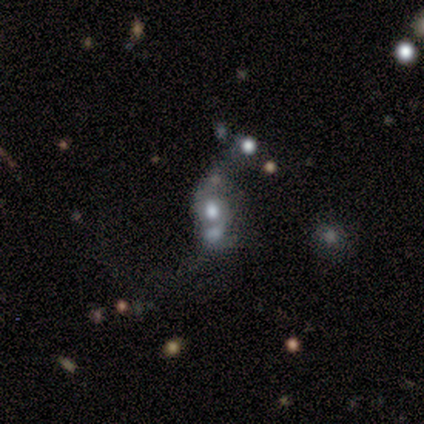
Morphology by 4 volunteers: Smooth or featured? 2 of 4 (50%) said smooth. How rounded? 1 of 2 (50%, tied with in between) said round. Merging? 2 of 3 (67%) said merger.